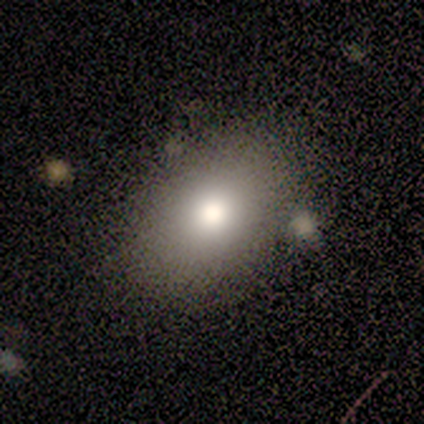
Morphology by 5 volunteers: smooth-or-featured: smooth: 80% | star or artifact: 20% | featured or disk: 0%
  how-rounded: in between: 75% | round: 25% | cigar-shaped: 0%
  merging: none: 100% | minor disturbance: 0% | major disturbance: 0% | merger: 0%